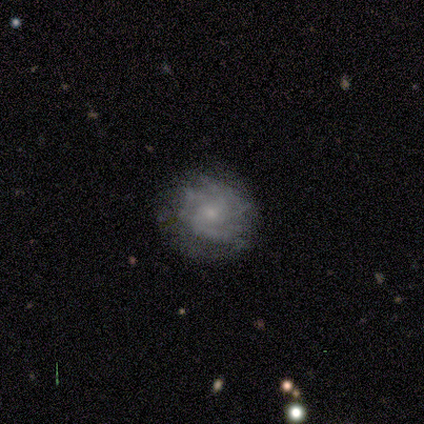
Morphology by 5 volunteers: This is clearly a featured or disk galaxy (100%). It is clearly not viewed edge-on (100%). Bar: likely no (60%). Spiral arm pattern: clearly yes (100%). Spiral arm count: likely can't tell (60%). Spiral winding: clearly tight (80%). Central bulge: clearly small (80%). Merging: clearly none (80%).